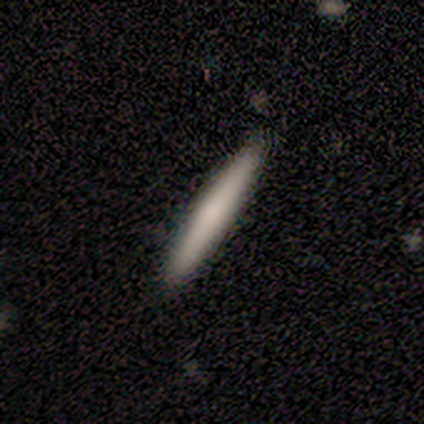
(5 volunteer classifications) A smooth galaxy with no disk features (60%) that is cigar-shaped (100%). Merging: none (80%).